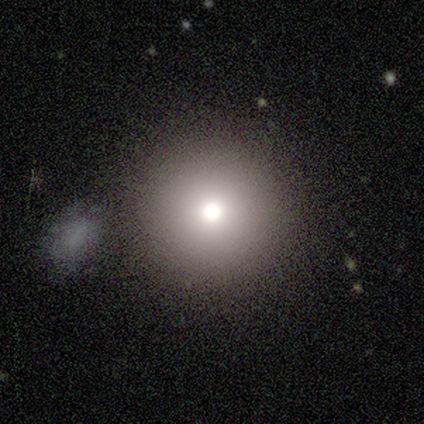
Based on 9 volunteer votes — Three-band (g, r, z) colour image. It shows a smooth galaxy with no disk features (67%) that is round (100%). Merging: none (100%).